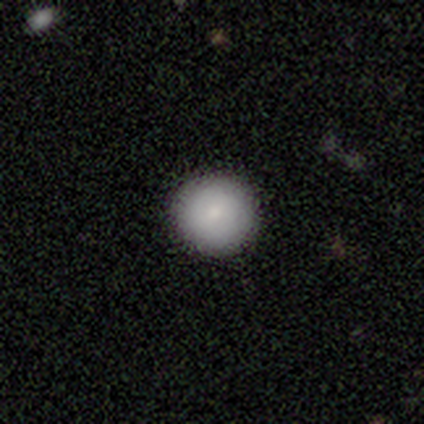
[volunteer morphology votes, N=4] Smooth or featured?
  - smooth: 100% *
  - featured or disk: 0%
  - star or artifact: 0%
How rounded?
  - round: 100% *
  - in between: 0%
  - cigar-shaped: 0%
Merging?
  - none: 75% *
  - minor disturbance: 25%
  - major disturbance: 0%
  - merger: 0%